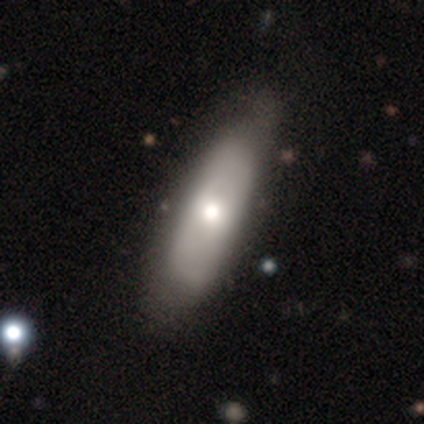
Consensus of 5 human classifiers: smooth-or-featured: featured or disk: 60% | smooth: 20% | star or artifact: 20%
  disk-edge-on: no: 100% | yes: 0%
    bar: no: 100% | strong: 0% | weak: 0%
    has-spiral-arms: no: 100% | yes: 0%
    bulge-size: large: 33% (tied) | moderate: 33% (tied) | none: 33% (tied) | dominant: 0% | small: 0%
  merging: minor disturbance: 50% | none: 25% | major disturbance: 25% | merger: 0%